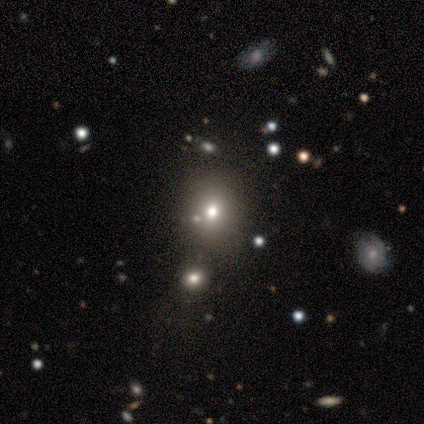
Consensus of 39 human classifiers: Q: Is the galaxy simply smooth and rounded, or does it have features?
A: smooth — 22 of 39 (56%).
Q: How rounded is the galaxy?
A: round — 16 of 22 (73%).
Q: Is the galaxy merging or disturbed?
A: none — 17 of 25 (68%).